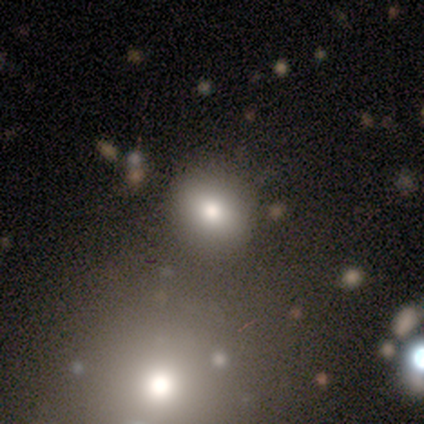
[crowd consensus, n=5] Q: Smooth or featured?
A: smooth (40%); tied with: star or artifact (40%)
Q: How rounded?
A: round (100%)
Q: Merging?
A: none (100%)